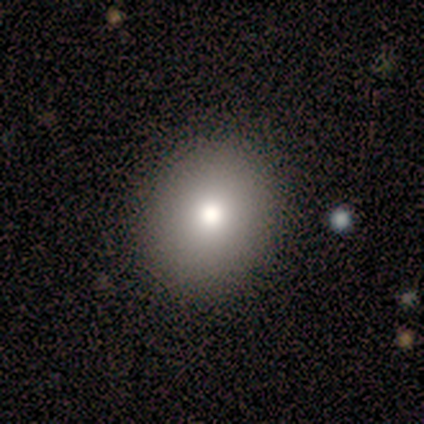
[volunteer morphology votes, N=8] This appears to be a smooth galaxy with no disk features (88%) that is in between round and cigar-shaped (57%). Merging: none (75%).